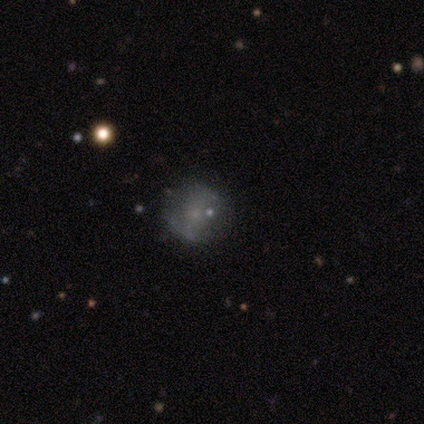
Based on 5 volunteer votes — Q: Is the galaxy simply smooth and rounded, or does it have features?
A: smooth — 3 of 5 (60%).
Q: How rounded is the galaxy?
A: round — 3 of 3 (100%).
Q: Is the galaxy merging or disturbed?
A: none — 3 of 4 (75%).